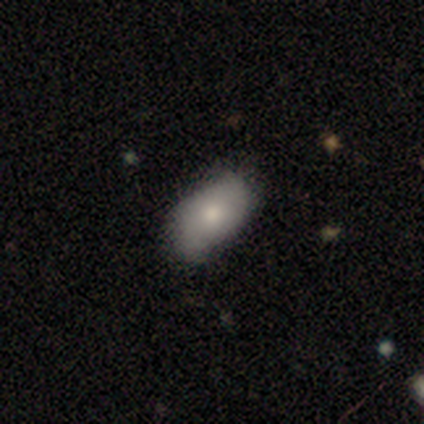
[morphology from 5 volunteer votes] Smooth or featured?
  - smooth: 60% *
  - featured or disk: 40%
  - star or artifact: 0%
How rounded?
  - in between: 67% *
  - cigar-shaped: 33%
  - round: 0%
Merging?
  - none: 60% *
  - minor disturbance: 40%
  - major disturbance: 0%
  - merger: 0%